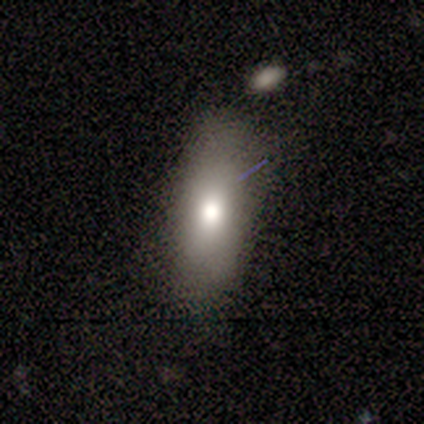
Smooth or featured: smooth — 83% (star or artifact — 17%)
How rounded: in between — 60% (cigar-shaped — 40%)
Merging: none — 60% (minor disturbance — 40%)